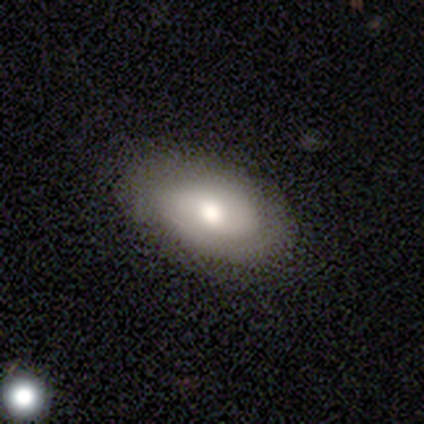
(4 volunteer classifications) Smooth or featured? 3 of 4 (75%) said smooth. How rounded? 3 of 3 (100%) said in between. Merging? 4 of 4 (100%) said none.